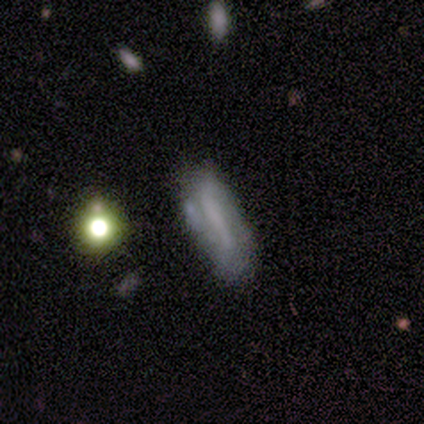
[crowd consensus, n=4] smooth_or_featured: featured or disk (p=0.75) [alt: star or artifact p=0.25]
disk_edge_on: no (p=1.00)
bar: strong (p=0.67) [alt: weak p=0.33]
has_spiral_arms: yes (p=1.00)
spiral_winding: loose (p=0.67) [alt: tight p=0.33]
spiral_arm_count: 2 (p=1.00)
bulge_size: none (p=0.67) [alt: small p=0.33]
merging: none (p=0.67) [alt: merger p=0.33]